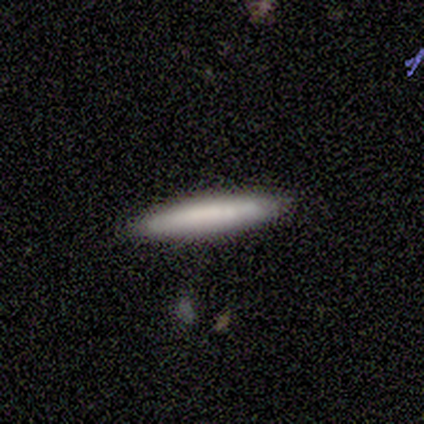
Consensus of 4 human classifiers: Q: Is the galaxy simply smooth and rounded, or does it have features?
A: smooth — 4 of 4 (100%).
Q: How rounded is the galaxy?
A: cigar-shaped — 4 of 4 (100%).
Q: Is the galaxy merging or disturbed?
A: none — 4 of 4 (100%).